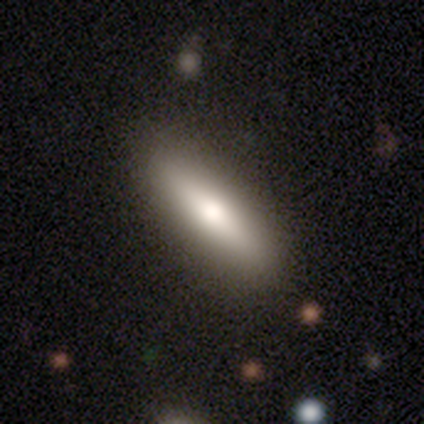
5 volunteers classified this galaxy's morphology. smooth_or_featured: smooth (p=0.60) [alt: featured or disk p=0.40]
how_rounded: cigar-shaped (p=1.00)
merging: none (p=0.60) [alt: minor disturbance p=0.40]